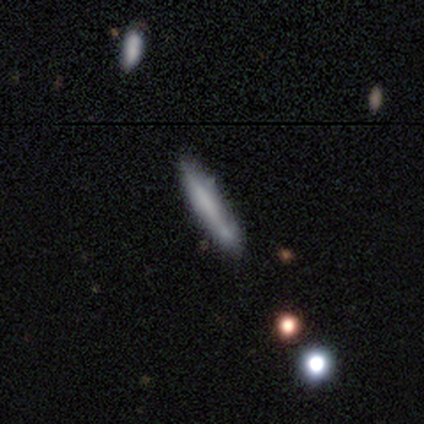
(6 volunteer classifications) Volunteers were most divided on "merging" (2-way tie): none: 50%, minor disturbance: 50%, major disturbance: 0%, merger: 0%. More confident: how rounded — cigar-shaped (100%); smooth or featured — smooth (83%).